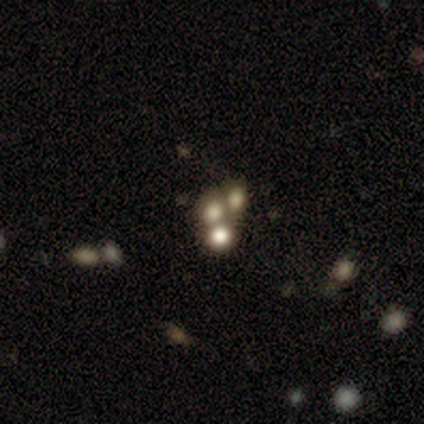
smooth_or_featured: star or artifact (p=0.60) [alt: smooth p=0.40]